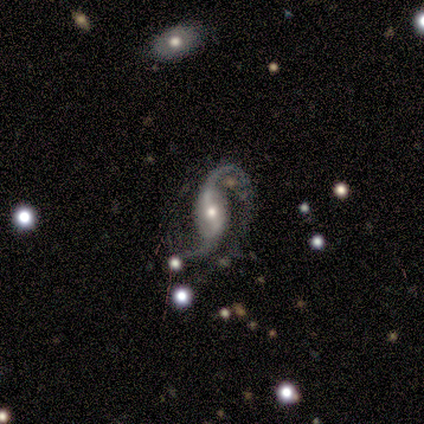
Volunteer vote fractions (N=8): Smooth or featured: featured or disk — 100%
Edge-on disk: no — 100%
Bar: weak — 75% (strong — 25%)
Spiral arms: yes — 100%
Spiral winding: loose — 88% (medium — 12%)
Spiral arm count: 2 — 100%
Bulge size: small — 62% (moderate — 38%)
Merging: none — 88% (merger — 12%)